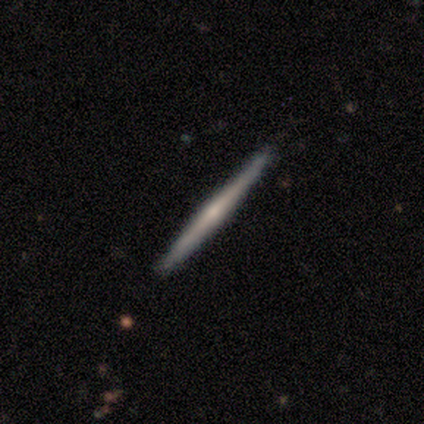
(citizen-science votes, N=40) A featured or disk galaxy (75%) viewed edge-on (100%) with a rounded central bulge (57%).

Vote fractions:
- Smooth or featured? featured or disk: 75% / smooth: 20% / star or artifact: 5%
- Edge-on disk? yes: 100% / no: 0%
- Edge-on bulge? rounded: 57% / none: 37% / boxy: 7%
- Merging? none: 89% / minor disturbance: 8% / merger: 3% / major disturbance: 0%